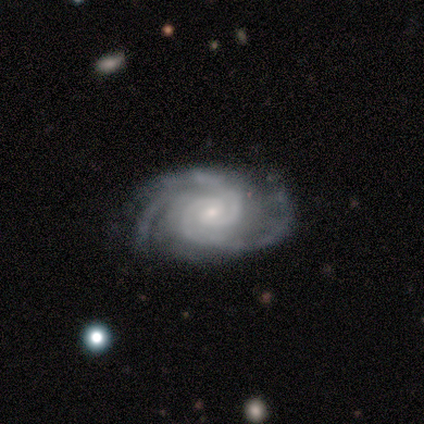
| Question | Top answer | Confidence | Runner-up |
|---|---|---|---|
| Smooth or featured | featured or disk | 100% | — |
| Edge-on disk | no | 100% | — |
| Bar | no | 60% | weak (40%) |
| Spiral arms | yes | 100% | — |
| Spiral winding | tight | 60% | medium (20%) |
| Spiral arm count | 3 | 40% | 2 (20%) |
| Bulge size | small | 60% | moderate (40%) |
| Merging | none | 80% | minor disturbance (20%) |